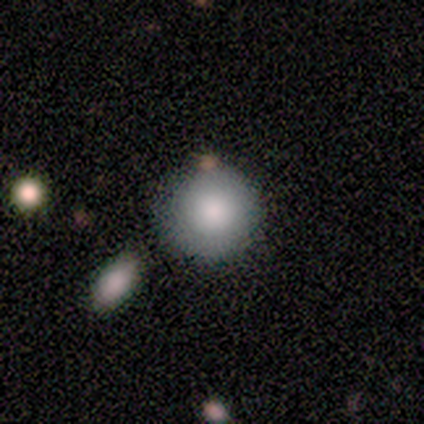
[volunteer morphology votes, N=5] A smooth galaxy with no disk features (60%) that is round (100%).

Vote fractions:
- Smooth or featured? smooth: 60% / star or artifact: 40% / featured or disk: 0%
- How rounded? round: 100% / in between: 0% / cigar-shaped: 0%
- Merging? none: 100% / minor disturbance: 0% / major disturbance: 0% / merger: 0%